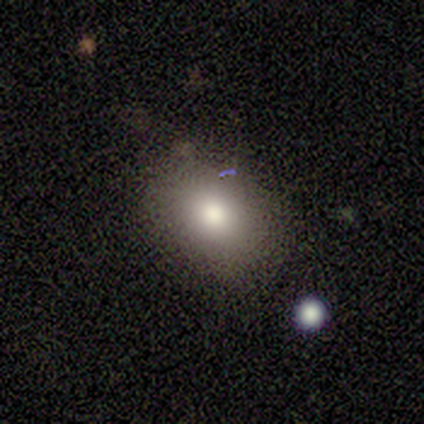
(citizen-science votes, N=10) smooth_or_featured: smooth (p=0.90) [alt: star or artifact p=0.10]
how_rounded: in between (p=0.56) [alt: round p=0.44]
merging: none (p=0.67) [alt: minor disturbance p=0.33]